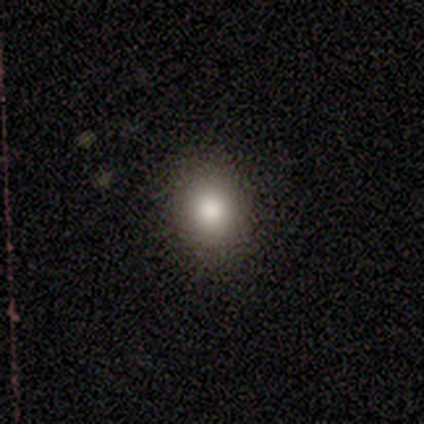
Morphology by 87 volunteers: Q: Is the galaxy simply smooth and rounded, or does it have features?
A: smooth — 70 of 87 (80%).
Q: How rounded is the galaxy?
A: round — 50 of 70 (71%).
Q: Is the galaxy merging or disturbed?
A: none — 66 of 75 (88%).